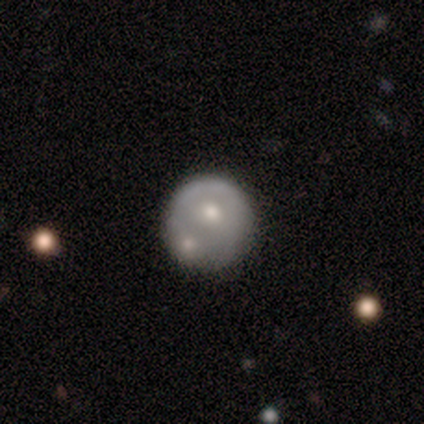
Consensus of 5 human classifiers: A smooth galaxy with no disk features (80%) that is round (100%).

Vote fractions:
- Smooth or featured? smooth: 80% / featured or disk: 20% / star or artifact: 0%
- How rounded? round: 100% / in between: 0% / cigar-shaped: 0%
- Merging? none: 60% / merger: 40% / minor disturbance: 0% / major disturbance: 0%